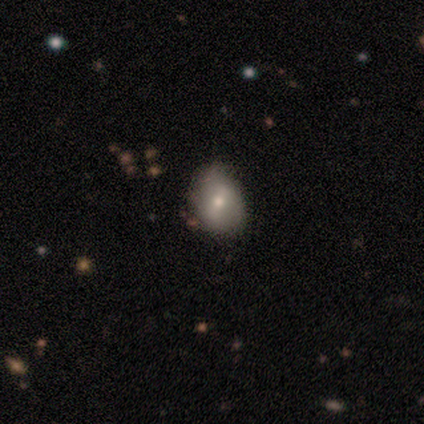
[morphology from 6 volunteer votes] This appears to be a smooth galaxy with no disk features (50%) that is round (100%). Merging: none (100%).